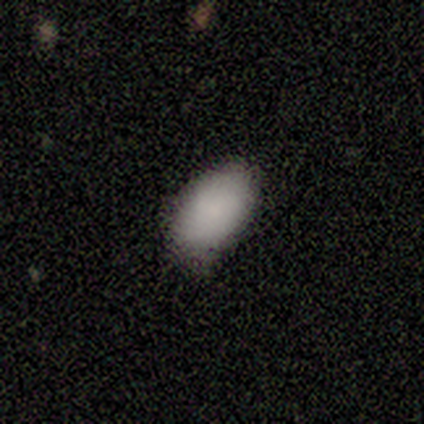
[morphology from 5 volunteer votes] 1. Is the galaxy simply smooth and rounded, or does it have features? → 100% smooth, 0% featured or disk, 0% star or artifact.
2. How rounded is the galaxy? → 80% in between, 20% cigar-shaped, 0% round.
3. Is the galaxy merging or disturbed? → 80% none, 20% minor disturbance, 0% major disturbance, 0% merger.